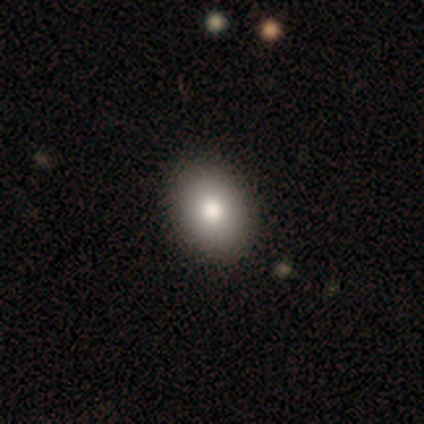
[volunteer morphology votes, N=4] smooth_or_featured: smooth (p=0.75) [alt: star or artifact p=0.25]
how_rounded: in between (p=0.67) [alt: round p=0.33]
merging: none (p=1.00)